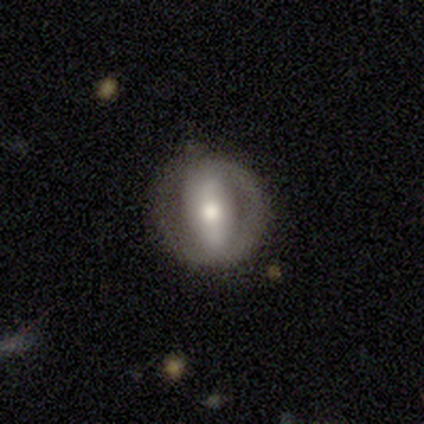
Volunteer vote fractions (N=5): A featured or disk galaxy (80%) with a strong bar (100%), no spiral arms (100%) and a moderate central bulge (67%).

Vote fractions:
- Smooth or featured? featured or disk: 80% / smooth: 20% / star or artifact: 0%
- Edge-on disk? no: 75% / yes: 25%
- Bar? strong: 100% / weak: 0% / no: 0%
- Spiral arms? no: 100% / yes: 0%
- Bulge size? moderate: 67% / small: 33% / dominant: 0% / large: 0% / none: 0%
- Merging? none: 100% / minor disturbance: 0% / major disturbance: 0% / merger: 0%